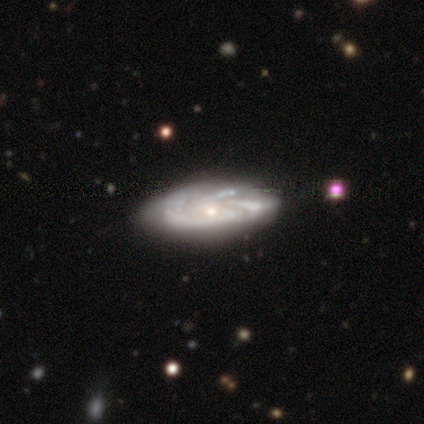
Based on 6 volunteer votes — Smooth or featured?
  - featured or disk: 83% *
  - smooth: 17%
  - star or artifact: 0%
Edge-on disk?
  - no: 100% *
  - yes: 0%
Bar?
  - no: 60% *
  - weak: 40%
  - strong: 0%
Spiral arms?
  - yes: 80% *
  - no: 20%
Spiral winding?
  - tight: 75% *
  - loose: 25%
  - medium: 0%
Spiral arm count?
  - can't tell: 75% *
  - more than 4: 25%
  - 1: 0%
  - 2: 0%
  - 3: 0%
  - 4: 0%
Bulge size?
  - small: 80% *
  - moderate: 20%
  - dominant: 0%
  - large: 0%
  - none: 0%
Merging?
  - none: 100% *
  - minor disturbance: 0%
  - major disturbance: 0%
  - merger: 0%